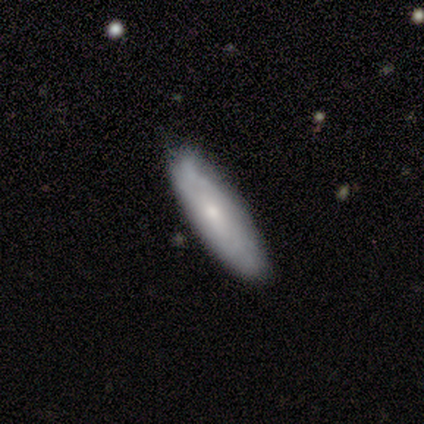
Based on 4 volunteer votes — Smooth or featured?
  - smooth: 50% * (tied)
  - featured or disk: 50% * (tied)
  - star or artifact: 0%
How rounded?
  - round: 50% * (tied)
  - cigar-shaped: 50% * (tied)
  - in between: 0%
Merging?
  - none: 75% *
  - merger: 25%
  - minor disturbance: 0%
  - major disturbance: 0%